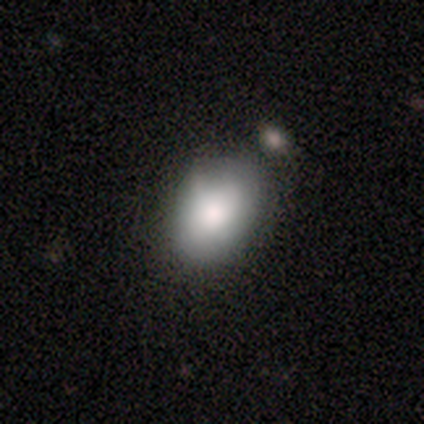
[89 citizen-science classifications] Smooth or featured: smooth — 82% (featured or disk — 11%)
How rounded: in between — 73% (round — 23%)
Merging: none — 48% (minor disturbance — 35%)